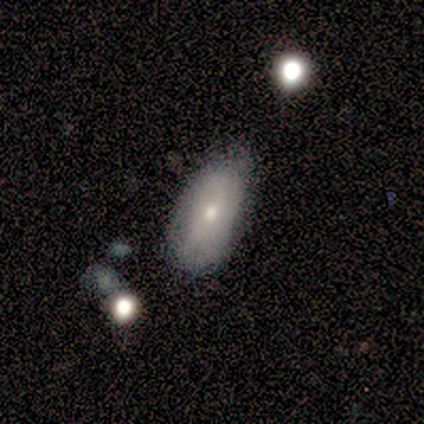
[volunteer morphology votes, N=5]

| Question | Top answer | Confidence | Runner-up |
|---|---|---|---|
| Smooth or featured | featured or disk | 60% | smooth (40%) |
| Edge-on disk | no | 67% | yes (33%) |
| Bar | no | 100% | — |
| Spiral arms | yes | 50% | tied: no (50%) |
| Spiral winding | tight | 100% | — |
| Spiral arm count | can't tell | 100% | — |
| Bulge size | moderate | 50% | tied: small (50%) |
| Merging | none | 80% | major disturbance (20%) |